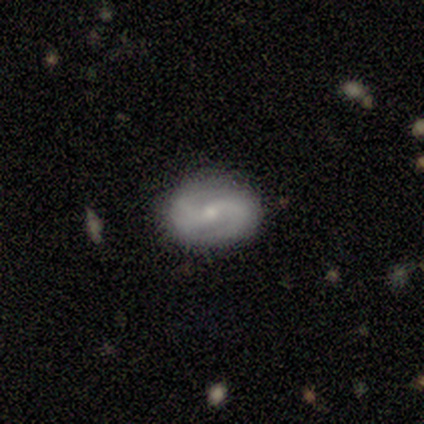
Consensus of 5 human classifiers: Smooth or featured? 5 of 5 (100%) said featured or disk. Edge-on disk? 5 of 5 (100%) said no. Bar? 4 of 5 (80%) said weak. Spiral arms? 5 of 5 (100%) said yes. Spiral winding? 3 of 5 (60%) said loose. Spiral arm count? 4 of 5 (80%) said 2. Bulge size? 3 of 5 (60%) said moderate. Merging? 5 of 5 (100%) said none.